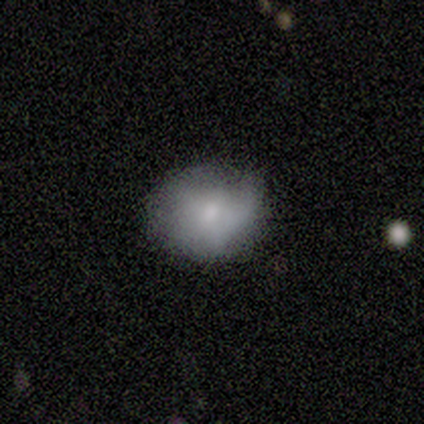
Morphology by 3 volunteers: smooth_or_featured: smooth (p=1.00)
how_rounded: in between (p=0.67) [alt: round p=0.33]
merging: minor disturbance (p=1.00)